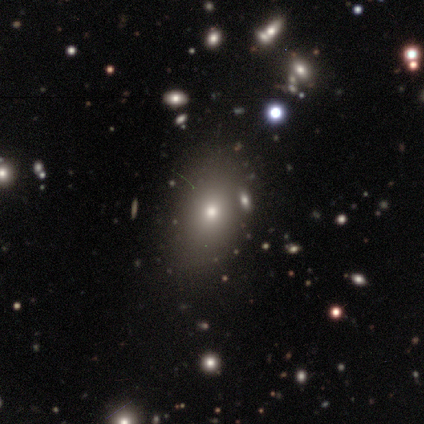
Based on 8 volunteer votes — Smooth or featured? star or artifact (50%)